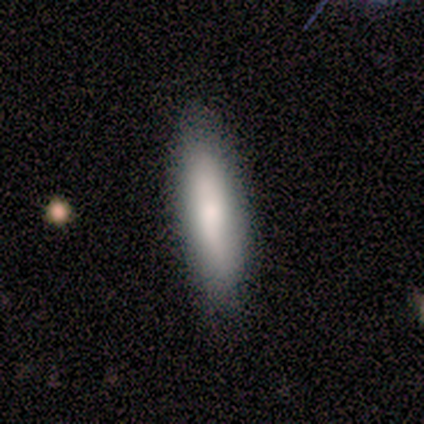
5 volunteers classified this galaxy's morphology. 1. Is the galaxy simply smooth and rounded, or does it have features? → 100% smooth, 0% featured or disk, 0% star or artifact.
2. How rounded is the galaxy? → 60% in between, 40% cigar-shaped, 0% round.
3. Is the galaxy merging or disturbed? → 100% none, 0% minor disturbance, 0% major disturbance, 0% merger.